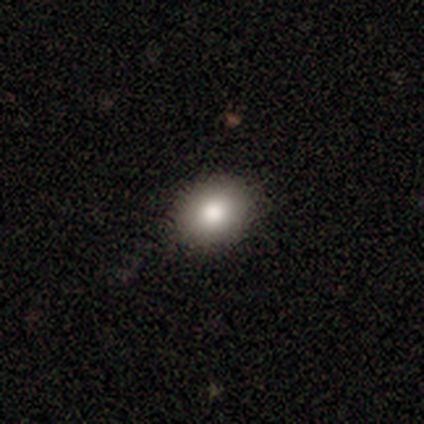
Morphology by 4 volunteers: smooth-or-featured: smooth: 50% (tied) | star or artifact: 50% (tied) | featured or disk: 0%
  how-rounded: round: 50% (tied) | in between: 50% (tied) | cigar-shaped: 0%
  merging: none: 100% | minor disturbance: 0% | major disturbance: 0% | merger: 0%